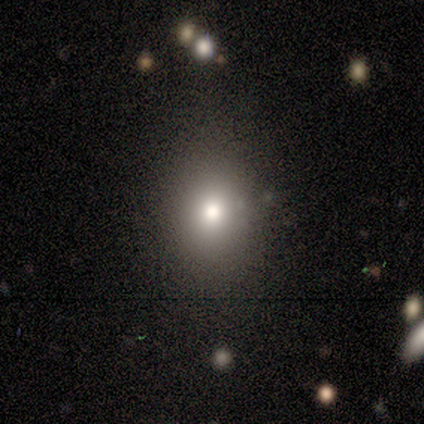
Smooth or featured? smooth (100%)
How rounded? round (60%)
Merging? none (100%)